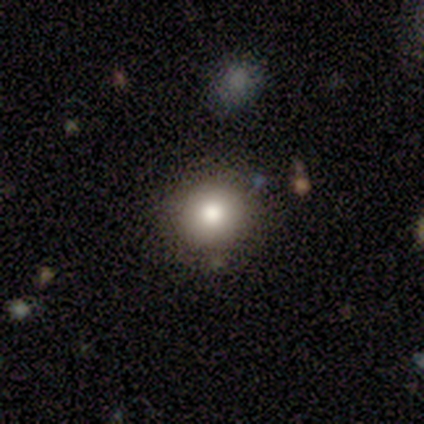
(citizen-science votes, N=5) This appears to be a smooth galaxy with no disk features (40%, tied with featured or disk) that is round (100%). Merging: none (75%).